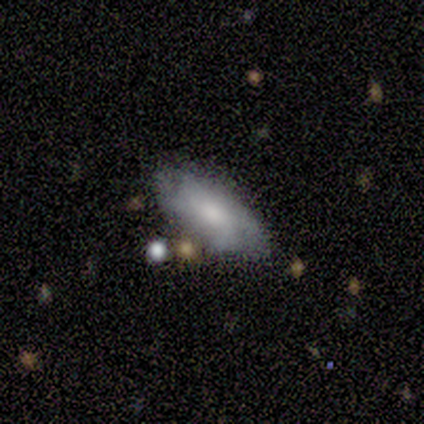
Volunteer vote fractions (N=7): Smooth or featured? 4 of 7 (57%) said featured or disk. Edge-on disk? 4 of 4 (100%) said no. Bar? 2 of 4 (50%) said weak. Spiral arms? 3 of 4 (75%) said yes. Spiral winding? 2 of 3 (67%) said loose. Spiral arm count? 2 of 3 (67%) said 3. Bulge size? 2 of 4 (50%, tied with small) said large. Merging? 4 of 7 (57%) said none.